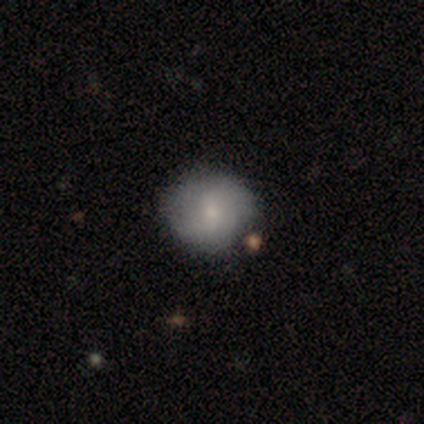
Smooth or featured? smooth (62%)
How rounded? round (84%)
Merging? none (67%)